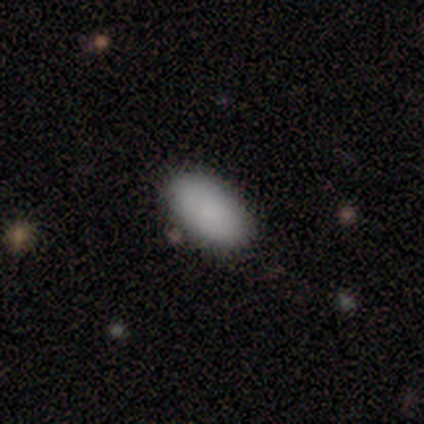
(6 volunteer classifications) Smooth or featured? 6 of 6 (100%) said smooth. How rounded? 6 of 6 (100%) said in between. Merging? 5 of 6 (83%) said none.